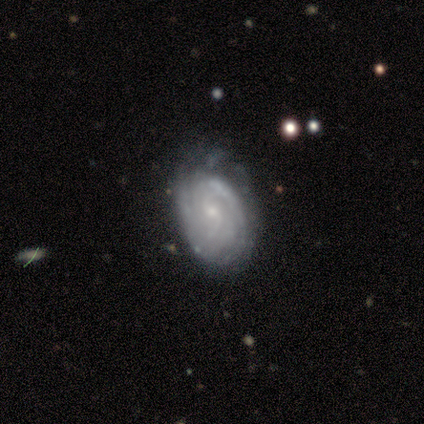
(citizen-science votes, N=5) Q: Smooth or featured?
A: featured or disk (80%); runner-up: smooth (20%)
Q: Edge-on disk?
A: no (100%)
Q: Bar?
A: weak (50%); tied with: no (50%)
Q: Spiral arms?
A: yes (100%)
Q: Spiral winding?
A: tight (75%); runner-up: loose (25%)
Q: Spiral arm count?
A: can't tell (75%); runner-up: 3 (25%)
Q: Bulge size?
A: small (75%); runner-up: moderate (25%)
Q: Merging?
A: none (40%); tied with: minor disturbance (40%)